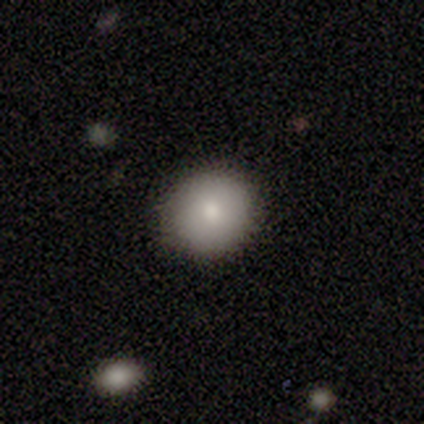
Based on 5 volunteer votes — smooth 80%, featured or disk 20%, star or artifact 0%. Down the decision tree: how rounded — round (75%); merging — none (100%).